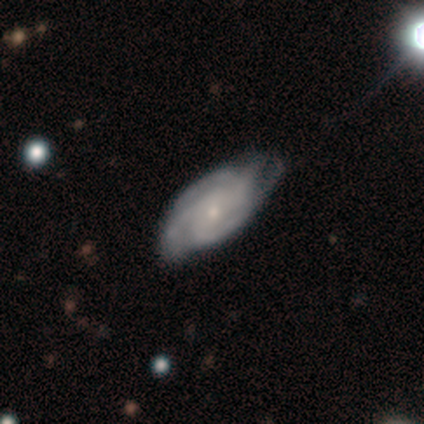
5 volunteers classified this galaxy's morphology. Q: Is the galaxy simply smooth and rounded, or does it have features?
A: featured or disk — 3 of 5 (60%).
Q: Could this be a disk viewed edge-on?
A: no — 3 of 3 (100%).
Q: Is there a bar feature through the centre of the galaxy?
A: no — 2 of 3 (67%).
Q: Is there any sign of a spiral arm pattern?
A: yes — 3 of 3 (100%).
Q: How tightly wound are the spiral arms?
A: medium — 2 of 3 (67%).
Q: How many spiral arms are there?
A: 4 — 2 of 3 (67%).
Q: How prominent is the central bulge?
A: small — 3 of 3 (100%).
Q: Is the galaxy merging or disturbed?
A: none — 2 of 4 (50%, tied with minor disturbance).